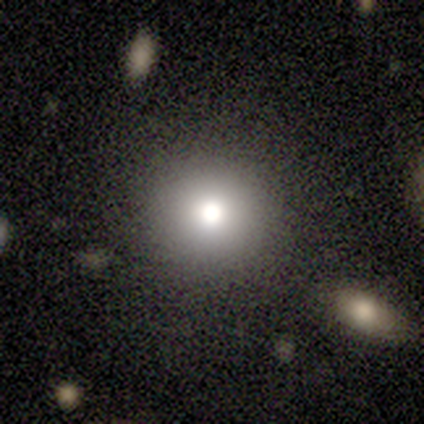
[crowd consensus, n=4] Overall: smooth (75%). How rounded: round (100%). Merging: none (100%).